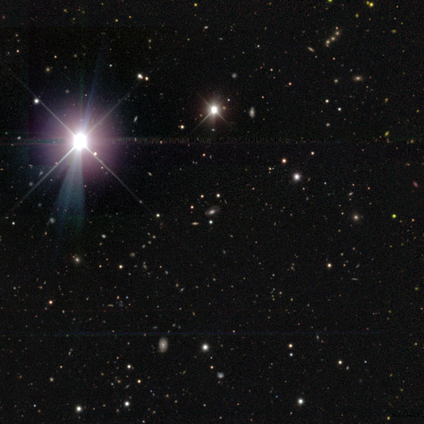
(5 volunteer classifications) Smooth or featured? star or artifact (80%)